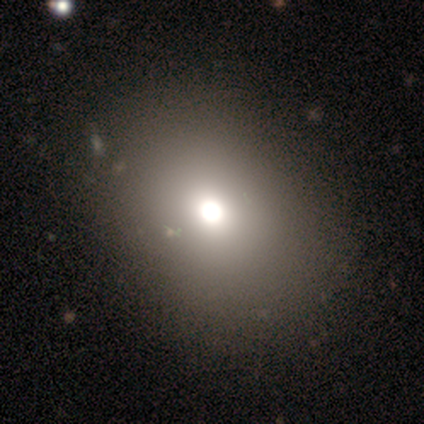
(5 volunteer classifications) Q: Smooth or featured?
A: smooth (40%); tied with: featured or disk (40%)
Q: How rounded?
A: round (50%); tied with: in between (50%)
Q: Merging?
A: none (100%)